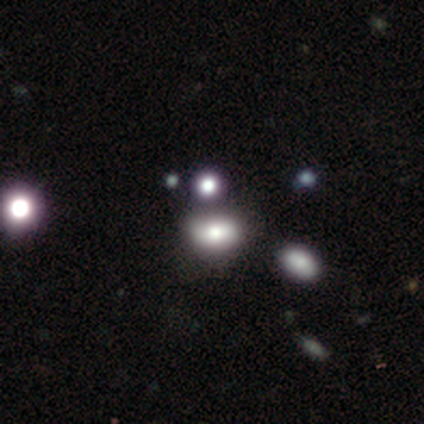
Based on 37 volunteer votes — Smooth or featured? 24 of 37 (65%) said smooth. How rounded? 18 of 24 (75%) said in between. Merging? 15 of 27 (56%) said merger.